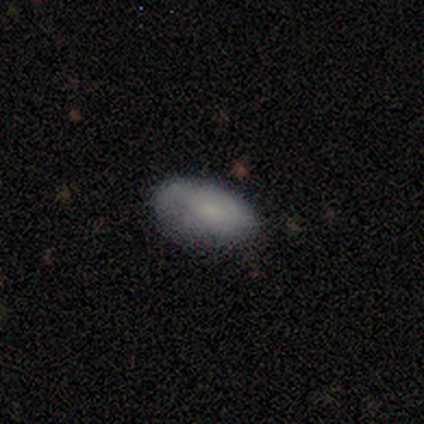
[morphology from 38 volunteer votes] smooth 53%, featured or disk 39%, star or artifact 8%. Down the decision tree: how rounded — in between (95%); merging — none (83%).